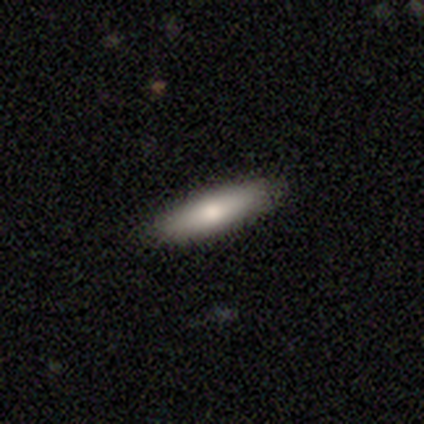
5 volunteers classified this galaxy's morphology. Volunteers were most divided on "smooth or featured": smooth: 80%, featured or disk: 20%, star or artifact: 0%. More confident: how rounded — cigar-shaped (100%); merging — none (100%).